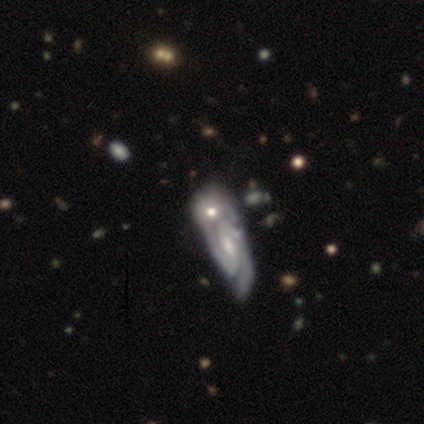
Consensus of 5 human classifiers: A featured or disk galaxy (60%) with no bar (67%), 2 (100%) tight (50%, tied with medium) spiral arms (67%) and a small central bulge (67%). Merging: merger (60%).